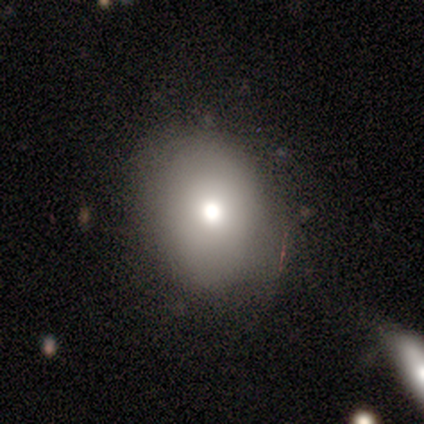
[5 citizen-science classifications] smooth_or_featured: smooth (p=0.80) [alt: featured or disk p=0.20]
how_rounded: round (p=0.50) [tied with: in between p=0.50]
merging: none (p=0.60) [alt: minor disturbance p=0.20]